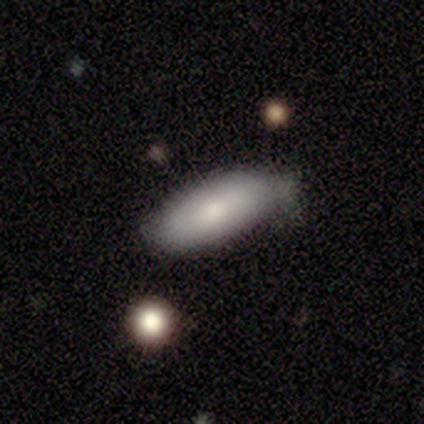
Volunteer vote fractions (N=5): This appears to be a smooth galaxy with no disk features (60%) that is in between round and cigar-shaped (100%). Merging: none (60%).